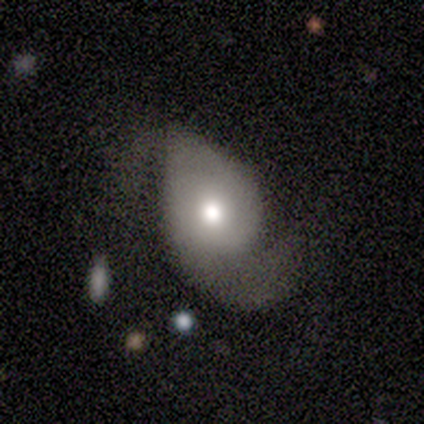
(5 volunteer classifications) Smooth or featured: featured or disk — 60% (smooth — 40%)
Edge-on disk: no — 100%
Bar: no — 100%
Spiral arms: yes — 100%
Spiral winding: loose — 67% (medium — 33%)
Spiral arm count: 2 — 100%
Bulge size: moderate — 67% (dominant — 33%)
Merging: major disturbance — 40% (tied with merger — 40%)